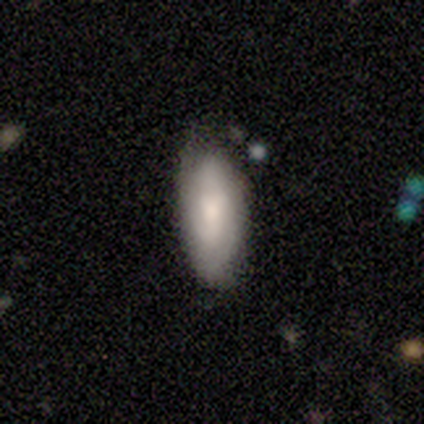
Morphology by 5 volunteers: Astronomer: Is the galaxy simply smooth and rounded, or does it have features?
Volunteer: smooth — 40%, tied with featured or disk at 40%.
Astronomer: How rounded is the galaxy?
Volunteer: in between — 100%.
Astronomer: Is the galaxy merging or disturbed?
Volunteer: none — 50%, tied with minor disturbance at 50%.